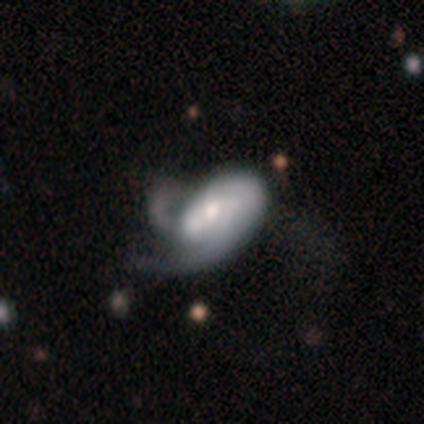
Smooth or featured: featured or disk — 73% (smooth — 27%)
Edge-on disk: no — 100%
Bar: no — 62% (strong — 25%)
Spiral arms: yes — 88% (no — 12%)
Spiral winding: medium — 57% (tight — 29%)
Spiral arm count: 2 — 43% (1 — 29%)
Bulge size: large — 50% (moderate — 38%)
Merging: major disturbance — 64% (none — 27%)